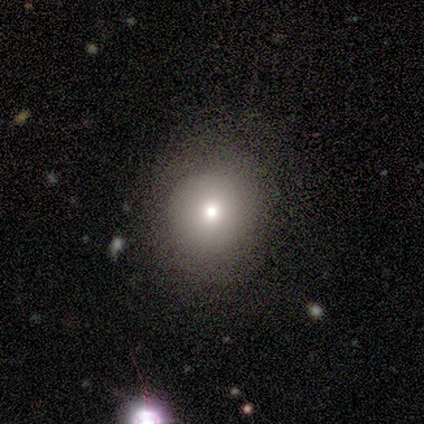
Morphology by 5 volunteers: Smooth or featured? smooth (100%)
How rounded? round (80%)
Merging? none (100%)